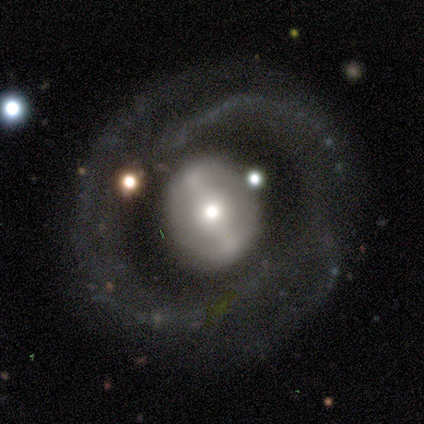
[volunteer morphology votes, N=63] This appears to be a featured or disk galaxy (84%) with a strong bar (58%), 2 (66%) medium (54%) spiral arms (66%) and a moderate central bulge (55%). Merging: none (67%).